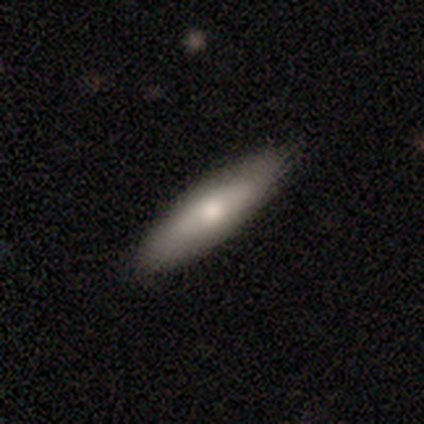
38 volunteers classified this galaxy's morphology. smooth-or-featured: smooth: 53% | featured or disk: 47% | star or artifact: 0%
  how-rounded: cigar-shaped: 75% | in between: 25% | round: 0%
  merging: none: 74% | minor disturbance: 21% | major disturbance: 3% | merger: 3%